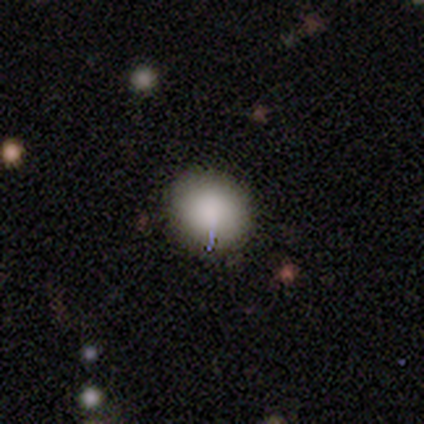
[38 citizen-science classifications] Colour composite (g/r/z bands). It shows a smooth galaxy with no disk features (82%) that is round (68%). Merging: none (88%).